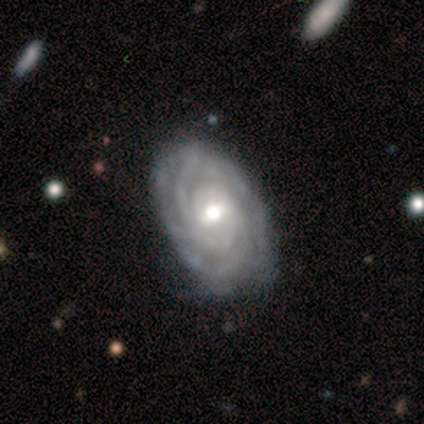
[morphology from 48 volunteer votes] This is likely a featured or disk galaxy (79%). It is clearly not viewed edge-on (97%). Bar: possibly weak (46%). Spiral arm pattern: clearly yes (97%). Spiral arm count: marginally 2 (31%, tied with 3). Spiral winding: clearly tight (83%). Central bulge: likely moderate (73%). Merging: likely none (63%).